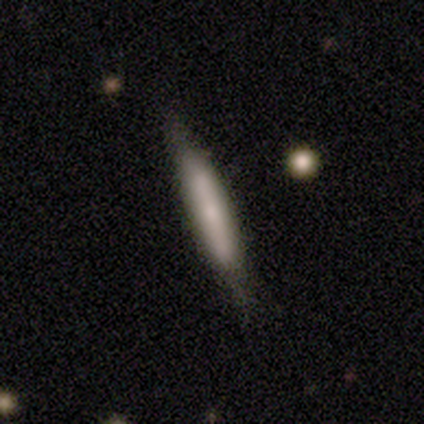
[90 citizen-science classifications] Q: Smooth or featured?
A: smooth (59%); runner-up: featured or disk (37%)
Q: How rounded?
A: cigar-shaped (96%); runner-up: in between (4%)
Q: Merging?
A: none (69%); runner-up: minor disturbance (21%)